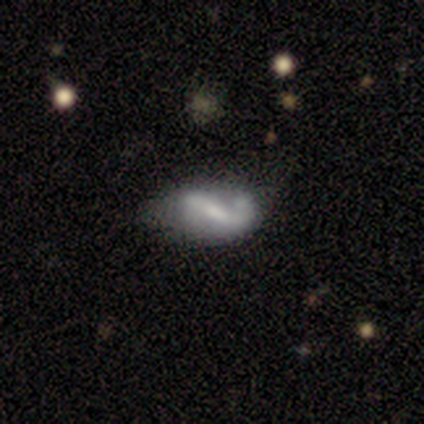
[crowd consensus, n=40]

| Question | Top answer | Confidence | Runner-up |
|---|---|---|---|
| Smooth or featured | featured or disk | 78% | smooth (22%) |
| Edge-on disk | no | 97% | yes (3%) |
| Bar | strong | 63% | weak (33%) |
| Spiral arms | yes | 77% | no (23%) |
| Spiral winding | loose | 65% | medium (35%) |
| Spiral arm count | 2 | 70% | 1 (26%) |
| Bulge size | small | 53% | moderate (30%) |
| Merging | minor disturbance | 50% | none (40%) |